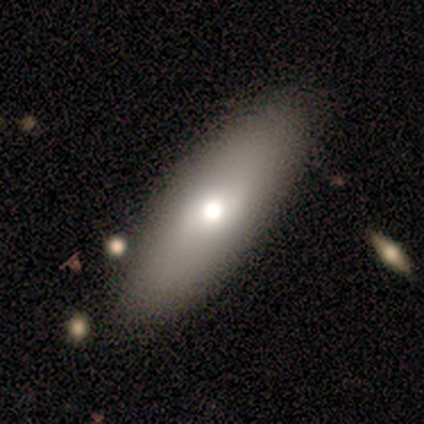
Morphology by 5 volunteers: This is clearly a smooth galaxy (100%). How rounded: clearly in between (100%). Merging: clearly none (100%).